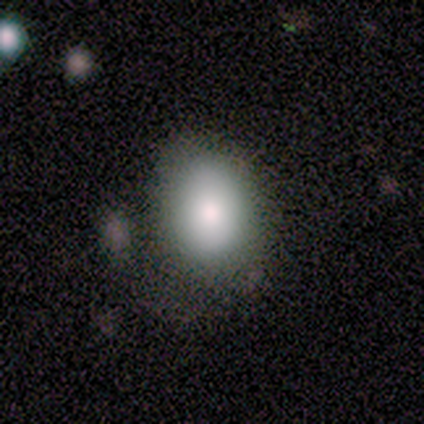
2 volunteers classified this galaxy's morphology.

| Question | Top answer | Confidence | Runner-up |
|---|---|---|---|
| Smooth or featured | smooth | 100% | — |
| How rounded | in between | 100% | — |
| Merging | none | 50% | tied: major disturbance (50%) |